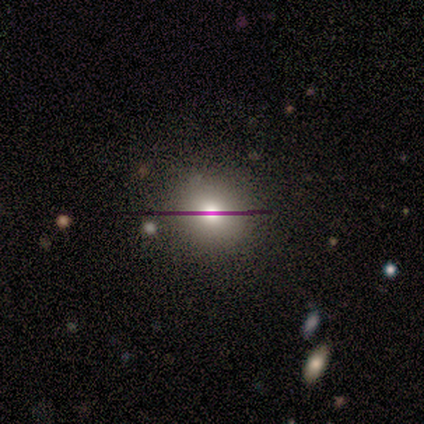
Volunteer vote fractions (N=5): A smooth galaxy with no disk features (40%, tied with star or artifact) that is round (100%). Merging: none (67%).